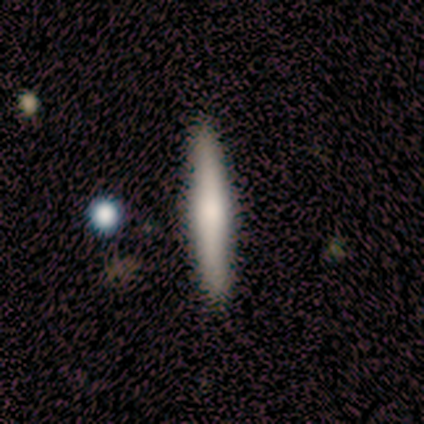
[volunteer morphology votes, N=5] Smooth or featured? 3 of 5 (60%) said smooth. How rounded? 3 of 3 (100%) said cigar-shaped. Merging? 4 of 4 (100%) said none.